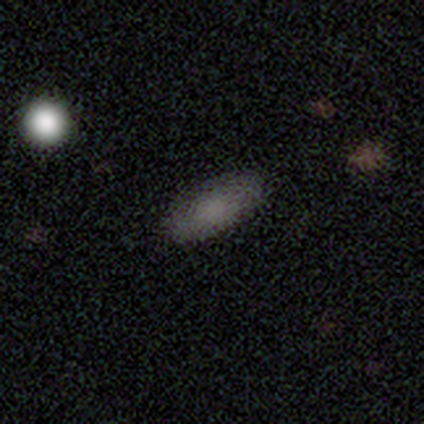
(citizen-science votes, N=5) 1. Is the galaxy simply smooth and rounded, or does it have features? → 100% smooth, 0% featured or disk, 0% star or artifact.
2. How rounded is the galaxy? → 100% in between, 0% round, 0% cigar-shaped.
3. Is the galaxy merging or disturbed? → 60% none, 40% minor disturbance, 0% major disturbance, 0% merger.